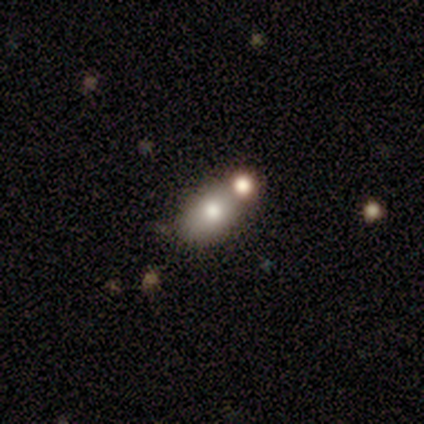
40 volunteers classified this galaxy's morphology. This appears to be a smooth galaxy with no disk features (78%) that is in between round and cigar-shaped (84%). Merging: none (65%).